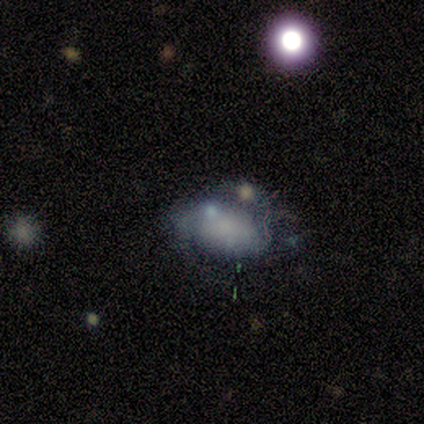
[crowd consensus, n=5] smooth-or-featured: featured or disk: 80% | smooth: 20% | star or artifact: 0%
  disk-edge-on: no: 100% | yes: 0%
    bar: no: 100% | strong: 0% | weak: 0%
    has-spiral-arms: yes: 50% (tied) | no: 50% (tied)
      spiral-winding: medium: 100% | tight: 0% | loose: 0%
      spiral-arm-count: 2: 100% | 1: 0% | 3: 0% | 4: 0% | more than 4: 0% | can't tell: 0%
    bulge-size: none: 100% | dominant: 0% | large: 0% | moderate: 0% | small: 0%
  merging: none: 40% (tied) | major disturbance: 40% (tied) | merger: 20% | minor disturbance: 0%